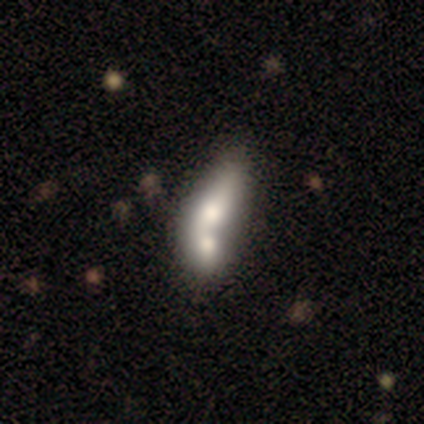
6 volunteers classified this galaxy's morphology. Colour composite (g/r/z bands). It shows a featured or disk galaxy (50%) with no bar (67%), no spiral arms (100%) and a moderate central bulge (67%). Merging: merger (60%).